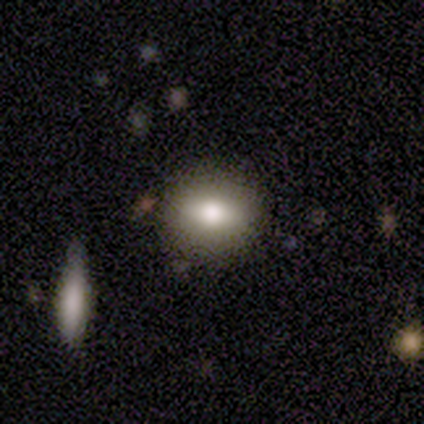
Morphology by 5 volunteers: Volunteers were most divided on "smooth or featured" (2-way tie): smooth: 40%, featured or disk: 40%, star or artifact: 20%. More confident: how rounded — round (100%); merging — none (75%).